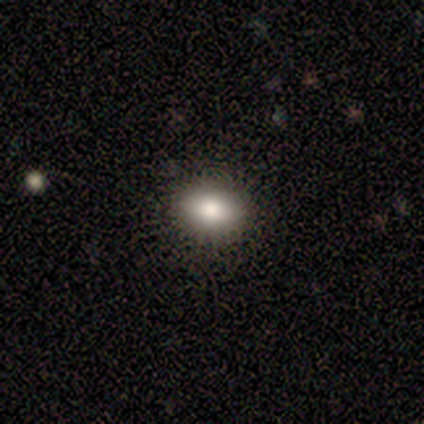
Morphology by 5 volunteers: smooth 40% (tied), star or artifact 40% (tied), featured or disk 20%. Down the decision tree: how rounded — in between (100%); merging — none (100%).